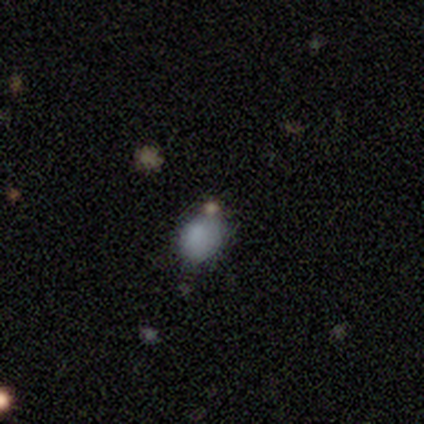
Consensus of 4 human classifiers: Smooth or featured? smooth (100%)
How rounded? in between (75%)
Merging? none (75%)